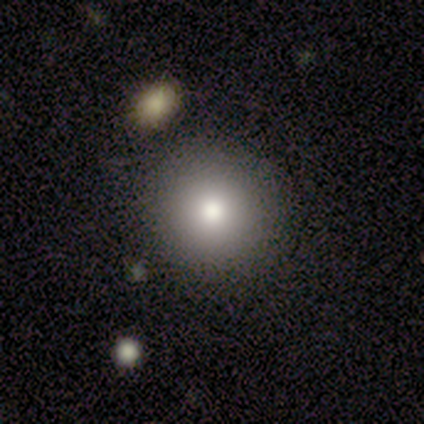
Volunteers were most divided on "smooth or featured" (2-way tie): smooth: 50%, featured or disk: 50%, star or artifact: 0%. More confident: how rounded — round (100%); merging — none (100%).